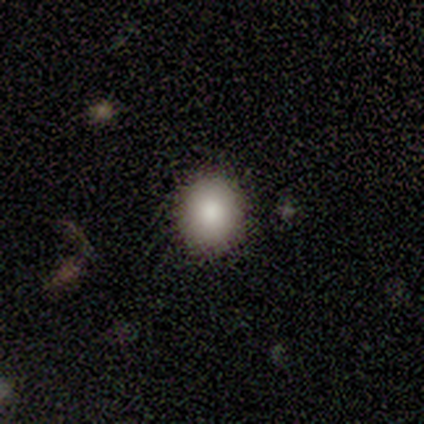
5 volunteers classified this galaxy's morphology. smooth_or_featured: smooth (p=1.00)
how_rounded: round (p=0.80) [alt: in between p=0.20]
merging: none (p=1.00)